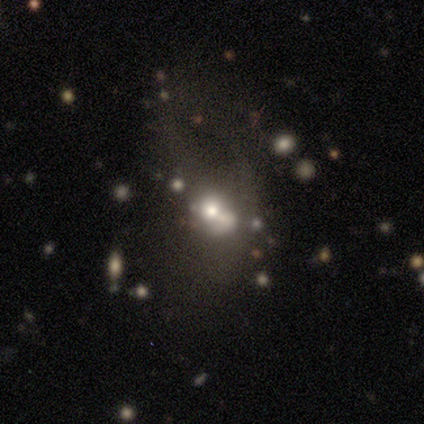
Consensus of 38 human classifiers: Volunteers were most divided on "merging": major disturbance: 39%, merger: 32%, none: 23%, minor disturbance: 6%. More confident: edge-on disk — no (95%); spiral arms — no (83%); bar — no (72%); bulge size — moderate (61%); smooth or featured — featured or disk (50%).